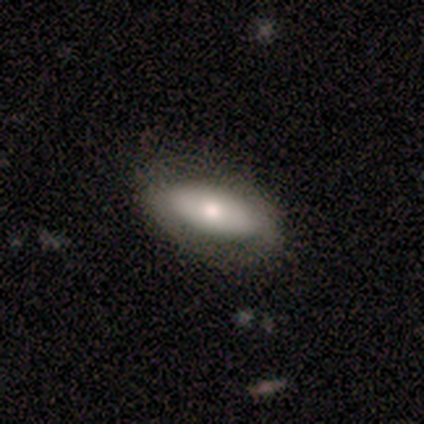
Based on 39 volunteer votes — Overall: smooth (72%). How rounded: in between (89%). Merging: none (70%).